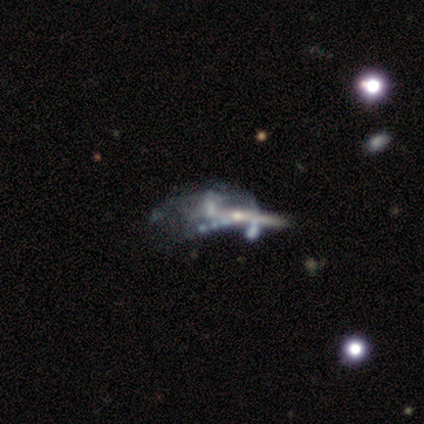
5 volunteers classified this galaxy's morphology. Smooth or featured? 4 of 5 (80%) said featured or disk. Edge-on disk? 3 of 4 (75%) said no. Bar? 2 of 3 (67%) said no. Spiral arms? 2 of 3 (67%) said no. Bulge size? 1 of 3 (33%, tied with small and none) said moderate. Merging? 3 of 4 (75%) said merger.